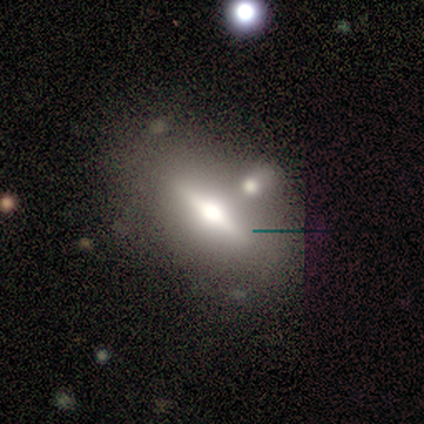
smooth-or-featured: featured or disk: 60% | smooth: 40% | star or artifact: 0%
  disk-edge-on: yes: 100% | no: 0%
    edge-on-bulge: rounded: 100% | boxy: 0% | none: 0%
  merging: merger: 60% | none: 40% | minor disturbance: 0% | major disturbance: 0%